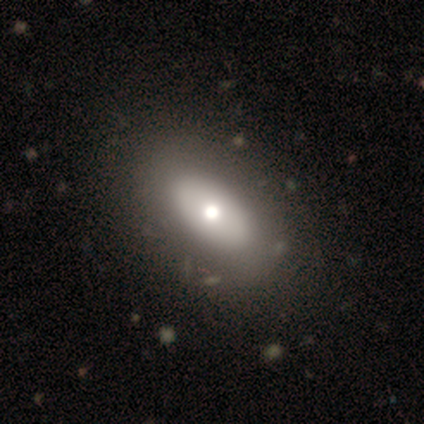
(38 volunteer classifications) Morphology: type=smooth (58%); roundness=in between (95%); merging=none (66%).